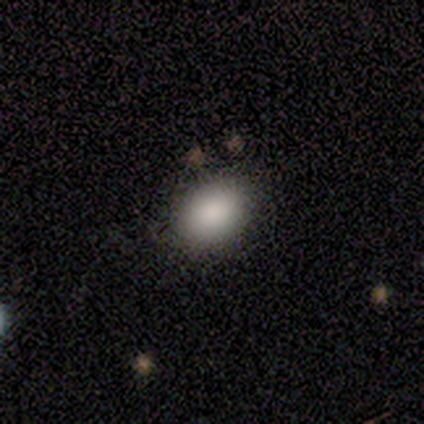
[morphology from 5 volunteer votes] This is clearly a smooth galaxy (80%). How rounded: likely in between (75%). Merging: clearly none (80%).